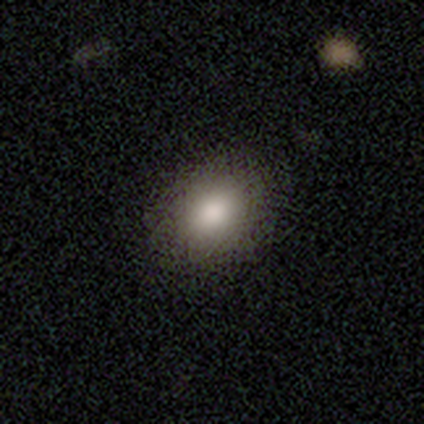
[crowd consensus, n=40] smooth-or-featured: smooth: 80% | featured or disk: 15% | star or artifact: 5%
  how-rounded: in between: 62% | round: 38% | cigar-shaped: 0%
  merging: none: 53% | major disturbance: 5% | minor disturbance: 3% | merger: 0%